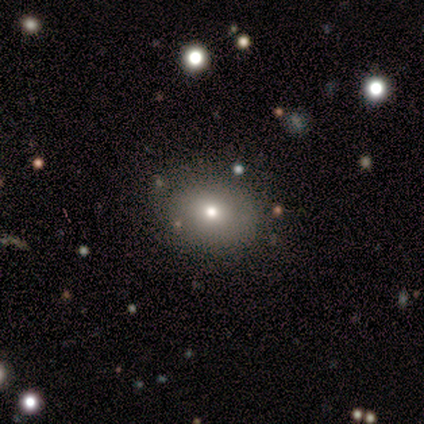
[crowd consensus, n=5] Smooth or featured?
  - smooth: 100% *
  - featured or disk: 0%
  - star or artifact: 0%
How rounded?
  - in between: 60% *
  - round: 40%
  - cigar-shaped: 0%
Merging?
  - none: 100% *
  - minor disturbance: 0%
  - major disturbance: 0%
  - merger: 0%